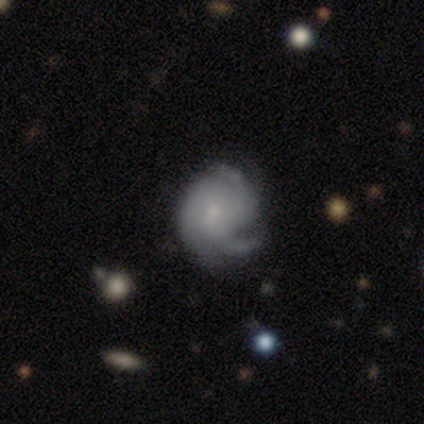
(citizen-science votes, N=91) This is clearly a featured or disk galaxy (82%). It is clearly not viewed edge-on (97%). Bar: likely no (68%). Spiral arm pattern: clearly yes (99%). Spiral arm count: likely 3 (65%). Spiral winding: possibly tight (50%). Central bulge: likely small (70%). Merging: likely none (74%).